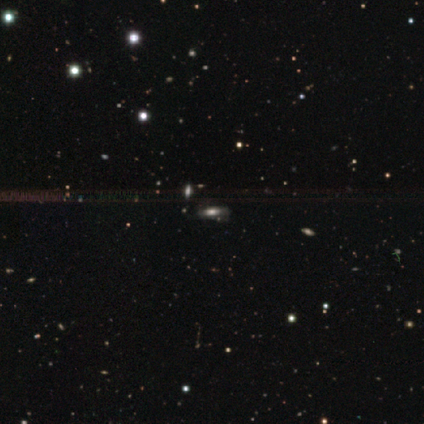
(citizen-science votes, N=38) A smooth galaxy with no disk features (53%) that is in between round and cigar-shaped (50%).

Vote fractions:
- Smooth or featured? smooth: 53% / featured or disk: 24% / star or artifact: 24%
- How rounded? in between: 50% / cigar-shaped: 45% / round: 5%
- Merging? none: 72% / merger: 14% / minor disturbance: 7% / major disturbance: 7%